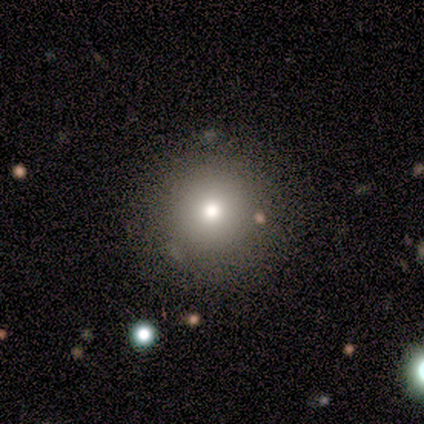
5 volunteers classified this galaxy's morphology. smooth 100%, featured or disk 0%, star or artifact 0%. Down the decision tree: how rounded — round (100%); merging — none (80%).